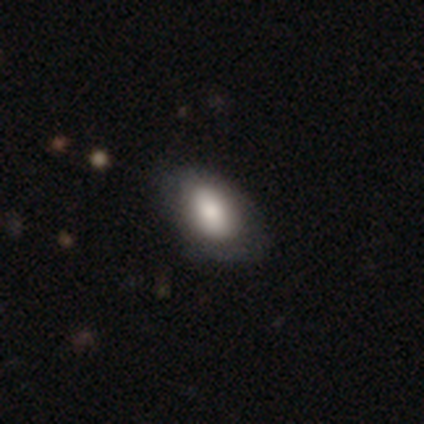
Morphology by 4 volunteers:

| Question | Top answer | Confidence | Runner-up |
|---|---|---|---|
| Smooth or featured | smooth | 100% | — |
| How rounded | in between | 75% | round (25%) |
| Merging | none | 100% | — |